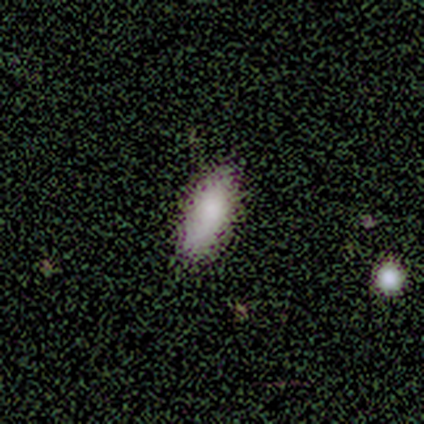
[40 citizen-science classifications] Smooth or featured? 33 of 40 (82%) said smooth. How rounded? 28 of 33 (85%) said in between. Merging? 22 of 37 (59%) said none.